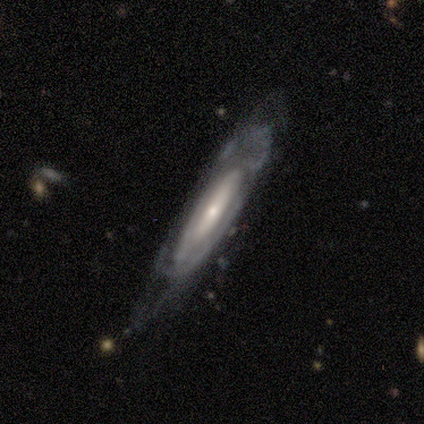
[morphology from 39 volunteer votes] A featured or disk galaxy (69%) with no bar (69%), 2 (45%) medium (55%) spiral arms (69%) and a small central bulge (75%). Merging: none (58%).